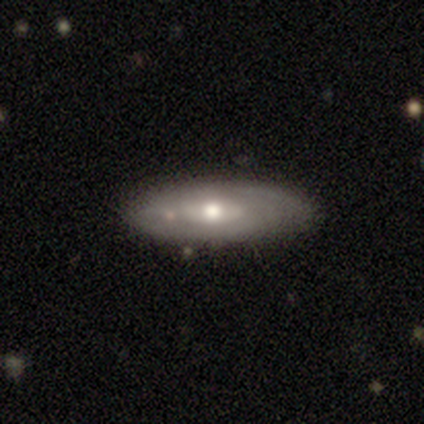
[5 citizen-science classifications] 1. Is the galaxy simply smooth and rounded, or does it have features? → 60% featured or disk, 40% smooth, 0% star or artifact.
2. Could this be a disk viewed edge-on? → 67% no, 33% yes.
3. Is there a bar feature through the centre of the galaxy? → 50% weak (tied), 50% no (tied), 0% strong.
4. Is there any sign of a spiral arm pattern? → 100% yes, 0% no.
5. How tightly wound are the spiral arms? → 50% tight (tied), 50% medium (tied), 0% loose.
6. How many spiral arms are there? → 100% can't tell, 0% 1, 0% 2, 0% 3, 0% 4, 0% more than 4.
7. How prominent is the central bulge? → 100% moderate, 0% dominant, 0% large, 0% small, 0% none.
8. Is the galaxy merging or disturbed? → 80% none, 20% minor disturbance, 0% major disturbance, 0% merger.